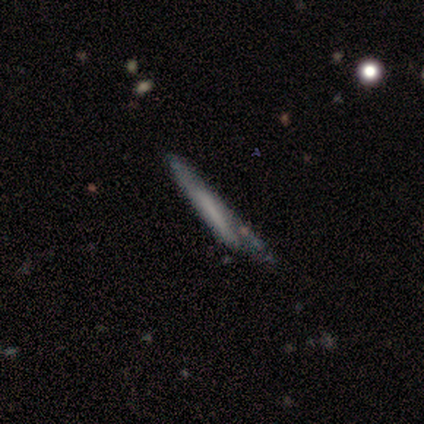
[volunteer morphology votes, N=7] A smooth galaxy with no disk features (86%) that is cigar-shaped (100%).

Vote fractions:
- Smooth or featured? smooth: 86% / featured or disk: 14% / star or artifact: 0%
- How rounded? cigar-shaped: 100% / round: 0% / in between: 0%
- Merging? none: 43% / minor disturbance: 29% / major disturbance: 29% / merger: 0%